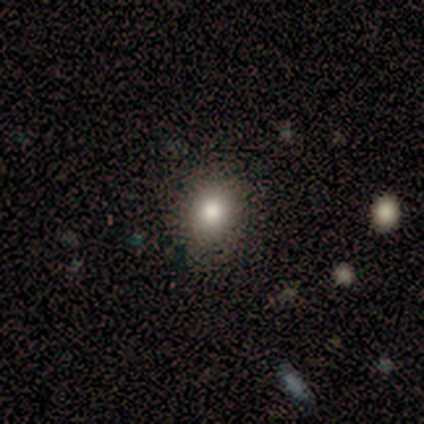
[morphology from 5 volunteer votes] This is clearly a smooth galaxy (80%). How rounded: likely round (75%). Merging: clearly none (80%).